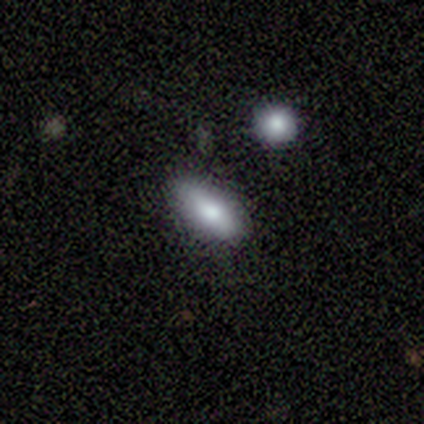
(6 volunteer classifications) smooth_or_featured: smooth (p=0.67) [alt: featured or disk p=0.33]
how_rounded: in between (p=1.00)
merging: none (p=1.00)